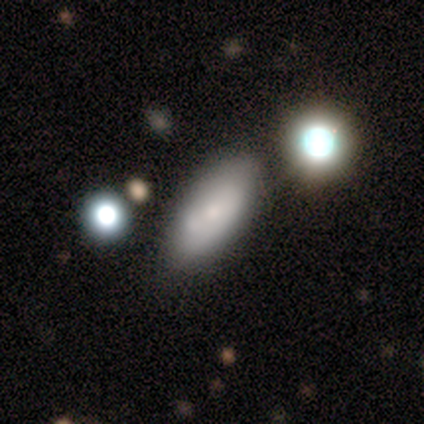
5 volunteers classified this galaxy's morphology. Q: Smooth or featured?
A: smooth (60%); runner-up: featured or disk (40%)
Q: How rounded?
A: in between (67%); runner-up: cigar-shaped (33%)
Q: Merging?
A: none (60%); runner-up: minor disturbance (40%)